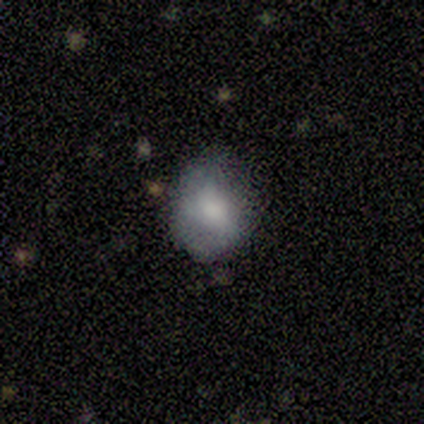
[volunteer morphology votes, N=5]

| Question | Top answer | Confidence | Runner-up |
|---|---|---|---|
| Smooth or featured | smooth | 80% | featured or disk (20%) |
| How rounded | round | 50% | tied: in between (50%) |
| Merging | none | 60% | minor disturbance (40%) |